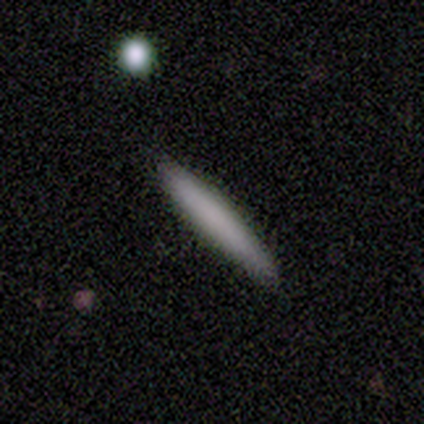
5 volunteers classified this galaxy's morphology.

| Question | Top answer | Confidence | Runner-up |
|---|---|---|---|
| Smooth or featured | smooth | 60% | featured or disk (40%) |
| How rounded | cigar-shaped | 67% | in between (33%) |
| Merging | none | 100% | — |